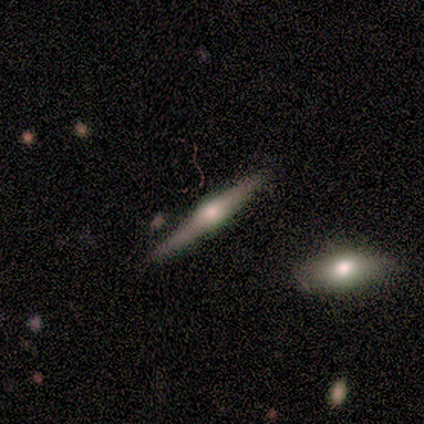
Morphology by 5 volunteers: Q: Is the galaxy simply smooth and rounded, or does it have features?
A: featured or disk — 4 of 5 (80%).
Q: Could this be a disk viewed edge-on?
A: yes — 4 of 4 (100%).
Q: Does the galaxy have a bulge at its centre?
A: rounded — 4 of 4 (100%).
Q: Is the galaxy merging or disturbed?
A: none — 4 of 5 (80%).